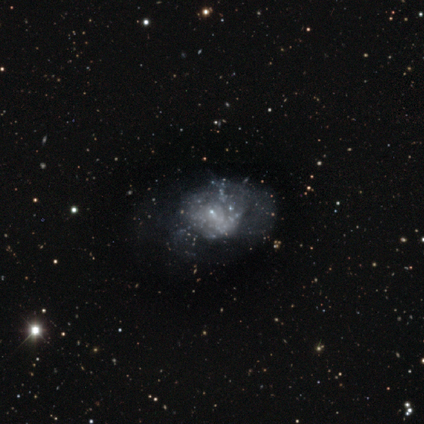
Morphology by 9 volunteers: A featured or disk galaxy (89%) with no bar (100%), no spiral arms (88%) and no central bulge (75%). Merging: none (44%, tied with major disturbance).